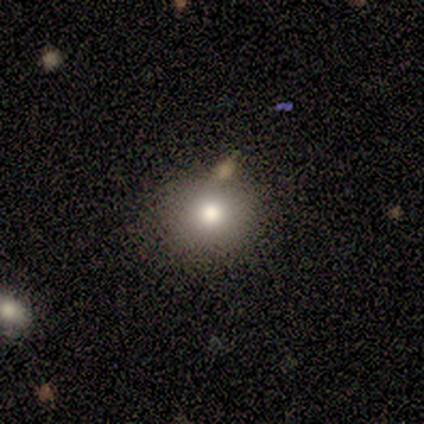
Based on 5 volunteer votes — Morphology: type=smooth (40%, tied with featured or disk); roundness=round (100%); merging=none (100%).